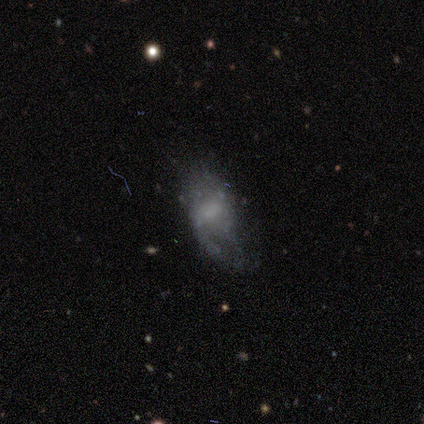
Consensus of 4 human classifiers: Q: Smooth or featured?
A: smooth (50%); tied with: featured or disk (50%)
Q: How rounded?
A: in between (100%)
Q: Merging?
A: minor disturbance (50%); runner-up: major disturbance (25%)